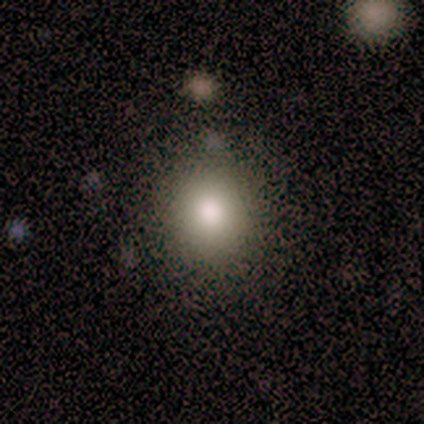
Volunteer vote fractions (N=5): Smooth or featured? 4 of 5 (80%) said smooth. How rounded? 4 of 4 (100%) said round. Merging? 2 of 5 (40%, tied with major disturbance) said none.